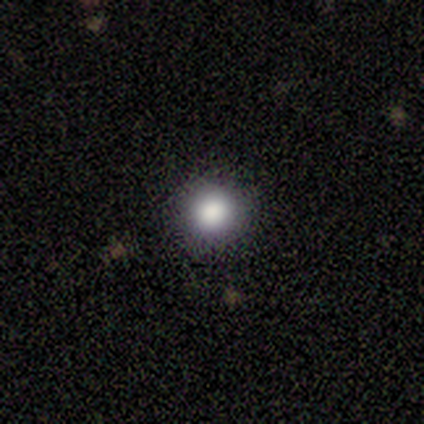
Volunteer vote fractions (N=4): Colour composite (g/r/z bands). It shows a smooth galaxy with no disk features (75%) that is round (100%). Merging: none (100%).